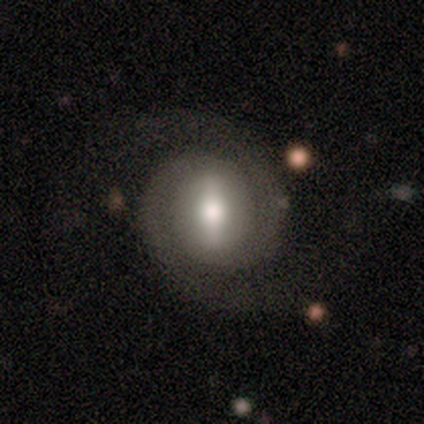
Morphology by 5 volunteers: featured or disk 100%, smooth 0%, star or artifact 0%. Down the decision tree: edge-on disk — no (100%); bar — strong (100%); spiral arms — yes (100%); spiral arm count — 2 (100%); spiral winding — tight (80%); bulge size — moderate (80%); merging — none (80%).